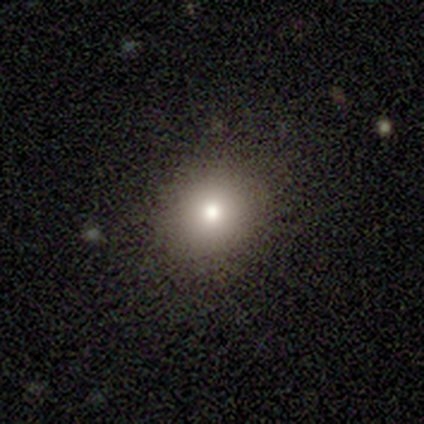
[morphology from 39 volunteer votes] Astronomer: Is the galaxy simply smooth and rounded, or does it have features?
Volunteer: smooth — 69%.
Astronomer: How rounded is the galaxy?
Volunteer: round — 85%.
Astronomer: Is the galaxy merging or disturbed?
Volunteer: none — 87%.